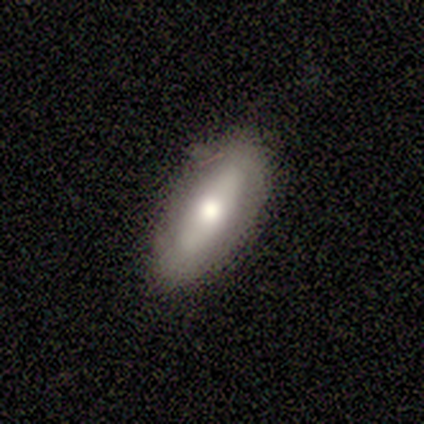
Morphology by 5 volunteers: A smooth galaxy with no disk features (80%) that is in between round and cigar-shaped (75%).

Vote fractions:
- Smooth or featured? smooth: 80% / featured or disk: 20% / star or artifact: 0%
- How rounded? in between: 75% / cigar-shaped: 25% / round: 0%
- Merging? none: 80% / minor disturbance: 20% / major disturbance: 0% / merger: 0%